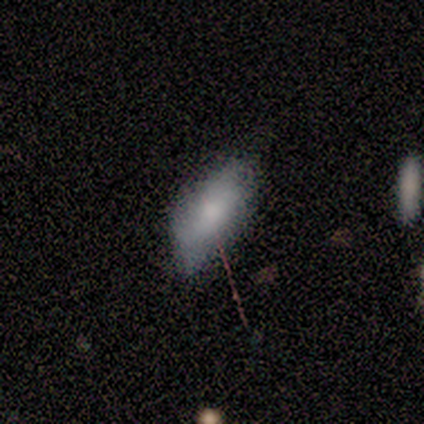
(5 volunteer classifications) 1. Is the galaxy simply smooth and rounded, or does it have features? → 80% smooth, 20% featured or disk, 0% star or artifact.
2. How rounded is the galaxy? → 50% in between (tied), 50% cigar-shaped (tied), 0% round.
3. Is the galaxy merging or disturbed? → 80% none, 20% minor disturbance, 0% major disturbance, 0% merger.